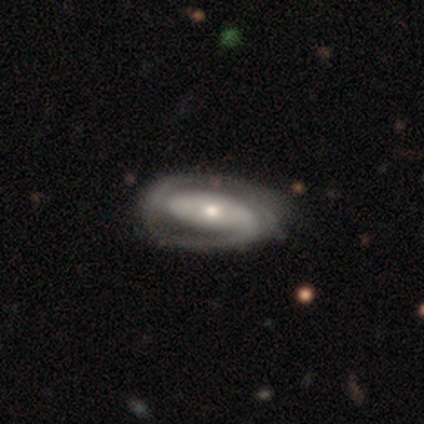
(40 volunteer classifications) This appears to be a featured or disk galaxy (92%) with no bar (64%), 2 (62%) tight (59%) spiral arms (89%) and a moderate central bulge (58%). Merging: none (41%).